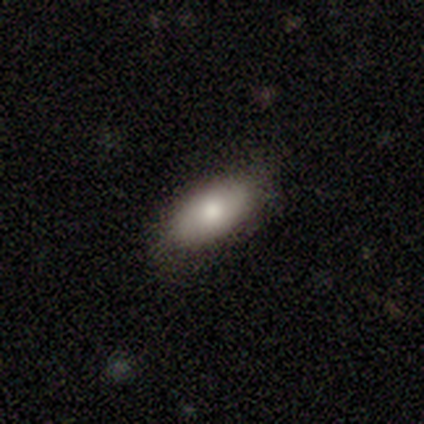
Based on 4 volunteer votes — A smooth galaxy with no disk features (100%) that is in between round and cigar-shaped (100%). Merging: none (100%).